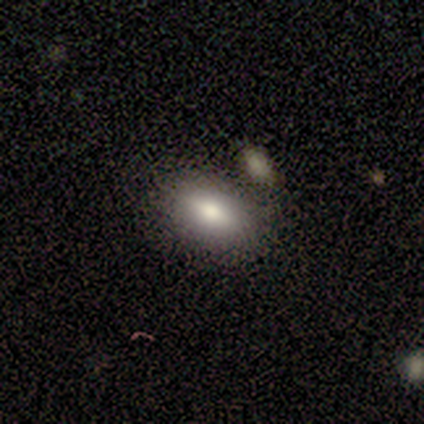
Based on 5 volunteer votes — Smooth or featured? 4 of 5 (80%) said smooth. How rounded? 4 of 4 (100%) said in between. Merging? 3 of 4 (75%) said none.